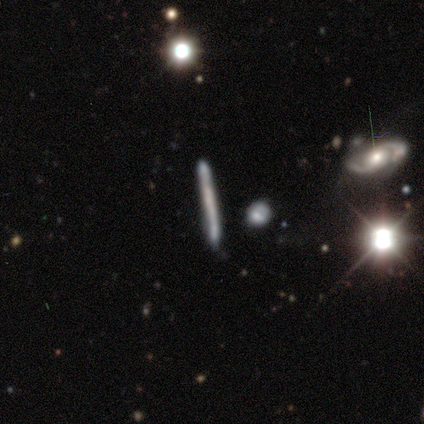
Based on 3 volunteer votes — A smooth galaxy with no disk features (67%) that is cigar-shaped (100%).

Vote fractions:
- Smooth or featured? smooth: 67% / featured or disk: 33% / star or artifact: 0%
- How rounded? cigar-shaped: 100% / round: 0% / in between: 0%
- Merging? none: 100% / minor disturbance: 0% / major disturbance: 0% / merger: 0%